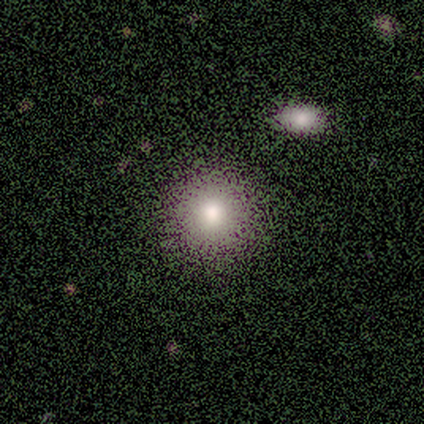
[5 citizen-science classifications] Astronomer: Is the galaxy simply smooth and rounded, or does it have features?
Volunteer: smooth — 80%.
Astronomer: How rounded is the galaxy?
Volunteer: round — 100%.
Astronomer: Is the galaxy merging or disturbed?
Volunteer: none — 100%.